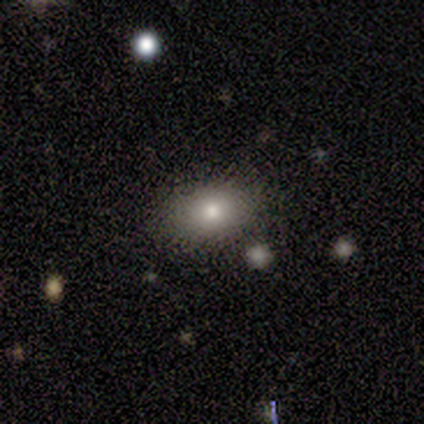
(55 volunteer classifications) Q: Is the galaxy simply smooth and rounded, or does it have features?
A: smooth — 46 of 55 (84%).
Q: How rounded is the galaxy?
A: in between — 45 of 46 (98%).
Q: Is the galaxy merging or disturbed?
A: none — 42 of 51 (82%).